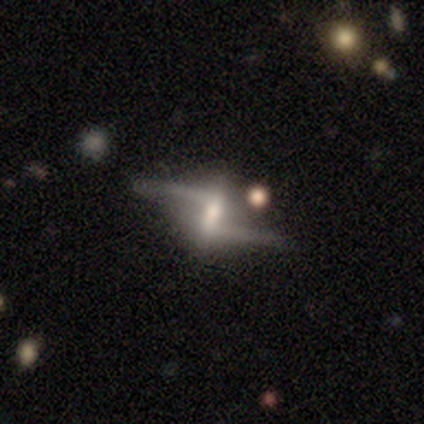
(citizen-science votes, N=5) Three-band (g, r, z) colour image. It shows a featured or disk galaxy (80%) with a strong bar (100%), 2 (100%) medium (50%, tied with loose) spiral arms (67%) and a moderate central bulge (33%, tied with small and none). Merging: none (50%).